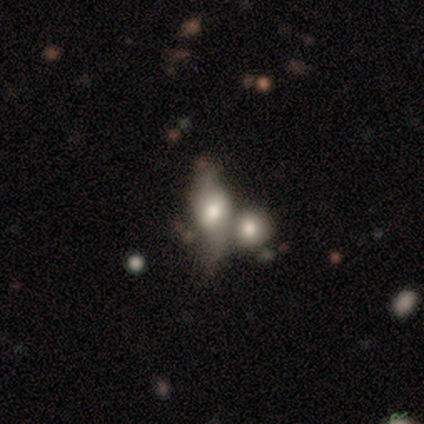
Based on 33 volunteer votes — Smooth or featured?
  - featured or disk: 58% *
  - smooth: 39%
  - star or artifact: 3%
Edge-on disk?
  - no: 84% *
  - yes: 16%
Bar?
  - weak: 56% *
  - no: 38%
  - strong: 6%
Spiral arms?
  - yes: 56% *
  - no: 44%
Spiral winding?
  - loose: 100% *
  - tight: 0%
  - medium: 0%
Spiral arm count?
  - 2: 100% *
  - 1: 0%
  - 3: 0%
  - 4: 0%
  - more than 4: 0%
  - can't tell: 0%
Bulge size?
  - moderate: 56% *
  - large: 25%
  - small: 19%
  - dominant: 0%
  - none: 0%
Merging?
  - merger: 50% *
  - none: 0%
  - minor disturbance: 0%
  - major disturbance: 0%